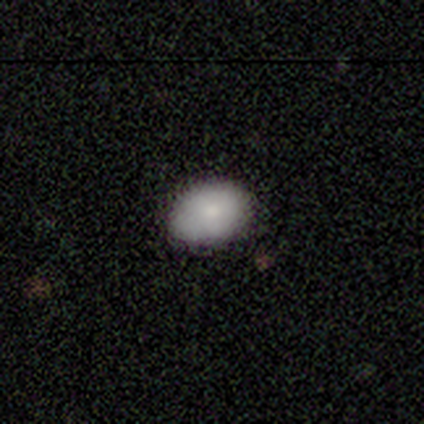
Smooth or featured: smooth — 75% (featured or disk — 25%)
How rounded: in between — 67% (round — 33%)
Merging: none — 100%